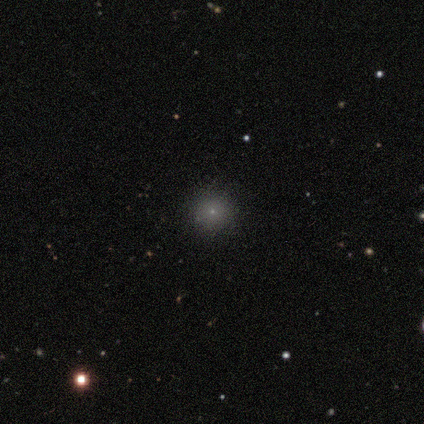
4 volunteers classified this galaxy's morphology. Smooth or featured? star or artifact (75%)